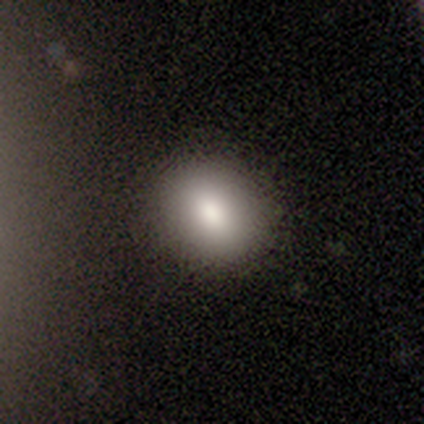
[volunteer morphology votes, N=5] This appears to be a smooth galaxy with no disk features (80%) that is round (75%). Merging: none (100%).